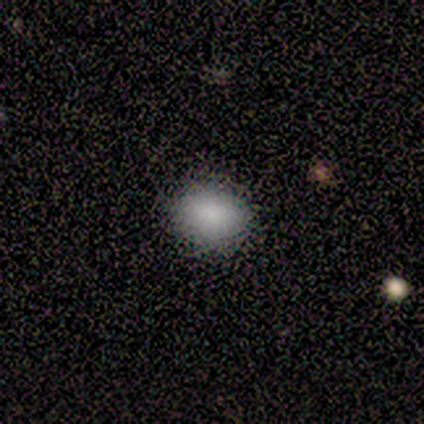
smooth 88%, star or artifact 12%, featured or disk 0%. Down the decision tree: how rounded — round (43%, tied with in between); merging — none (86%).